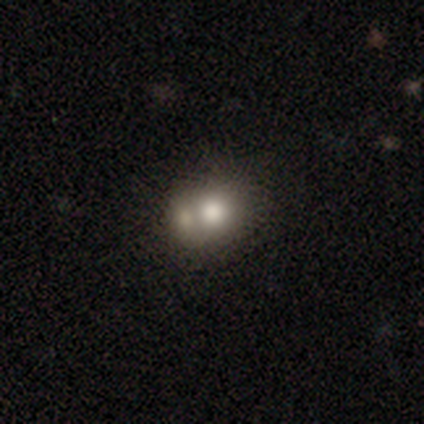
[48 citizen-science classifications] This is likely a smooth galaxy (69%). How rounded: likely round (70%). Merging: likely merger (62%).